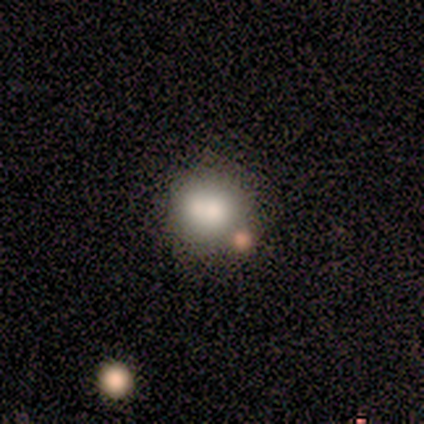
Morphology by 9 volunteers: smooth_or_featured: smooth (p=0.44) [tied with: featured or disk p=0.44]
how_rounded: round (p=0.50) [tied with: in between p=0.50]
merging: merger (p=0.50) [alt: none p=0.38]